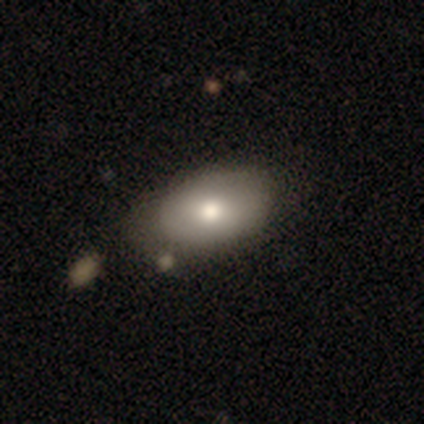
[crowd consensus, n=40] This is clearly a smooth galaxy (85%). How rounded: clearly in between (91%). Merging: possibly none (57%).